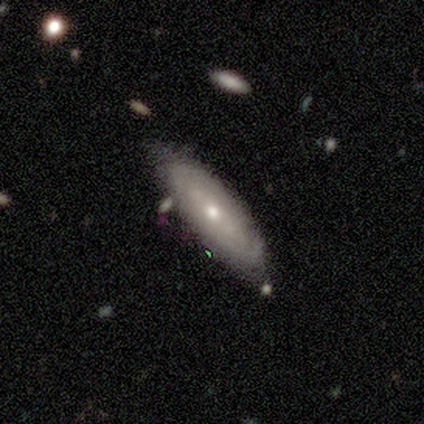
Smooth or featured?
  - featured or disk: 60% *
  - smooth: 30%
  - star or artifact: 10%
Edge-on disk?
  - no: 83% *
  - yes: 17%
Bar?
  - no: 80% *
  - strong: 20%
  - weak: 0%
Spiral arms?
  - no: 60% *
  - yes: 40%
Bulge size?
  - small: 80% *
  - moderate: 20%
  - dominant: 0%
  - large: 0%
  - none: 0%
Merging?
  - none: 89% *
  - minor disturbance: 11%
  - major disturbance: 0%
  - merger: 0%